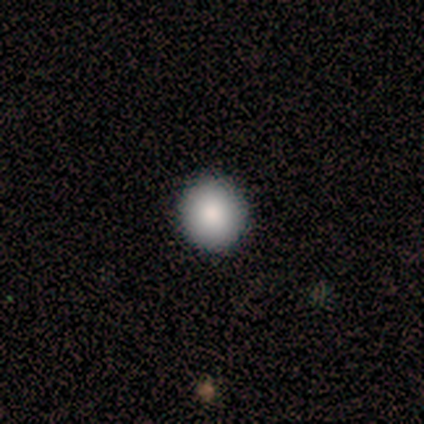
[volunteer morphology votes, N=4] Smooth or featured? 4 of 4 (100%) said smooth. How rounded? 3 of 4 (75%) said round. Merging? 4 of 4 (100%) said none.